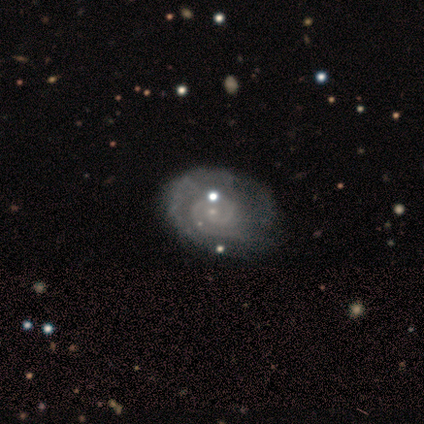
smooth_or_featured: featured or disk (p=0.75) [alt: smooth p=0.25]
disk_edge_on: no (p=1.00)
bar: no (p=0.67) [alt: strong p=0.33]
has_spiral_arms: yes (p=0.67) [alt: no p=0.33]
spiral_winding: tight (p=1.00)
spiral_arm_count: 2 (p=0.50) [tied with: 3 p=0.50]
bulge_size: small (p=0.67) [alt: moderate p=0.33]
merging: minor disturbance (p=0.50) [alt: none p=0.25]